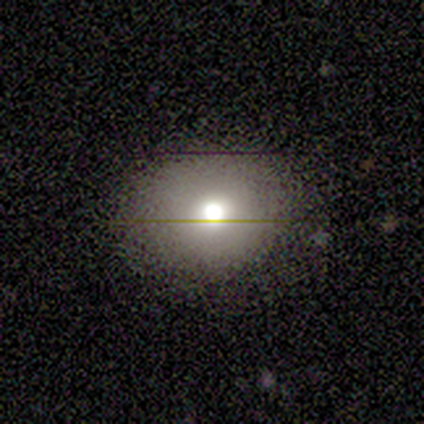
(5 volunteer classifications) smooth_or_featured: smooth (p=0.80) [alt: featured or disk p=0.20]
how_rounded: round (p=0.75) [alt: in between p=0.25]
merging: none (p=1.00)